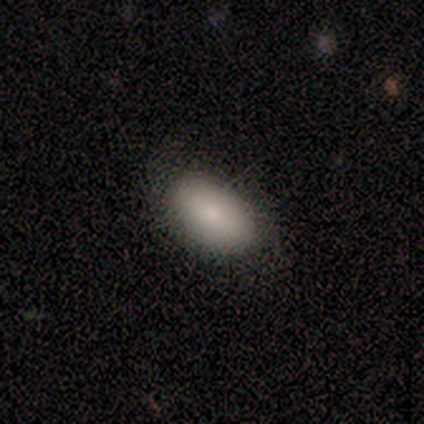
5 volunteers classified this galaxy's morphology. A smooth galaxy with no disk features (80%) that is in between round and cigar-shaped (100%). Merging: none (60%).